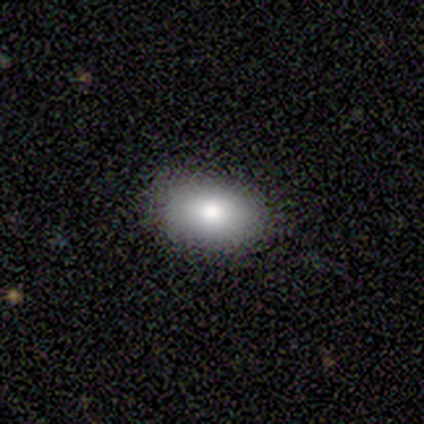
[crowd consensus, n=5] A smooth galaxy with no disk features (100%) that is in between round and cigar-shaped (100%).

Vote fractions:
- Smooth or featured? smooth: 100% / featured or disk: 0% / star or artifact: 0%
- How rounded? in between: 100% / round: 0% / cigar-shaped: 0%
- Merging? none: 100% / minor disturbance: 0% / major disturbance: 0% / merger: 0%